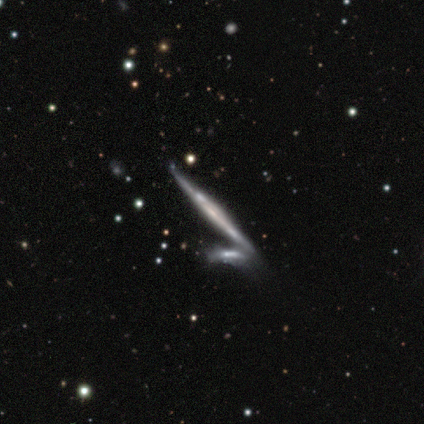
Volunteers were most divided on "merging": minor disturbance: 50%, major disturbance: 25%, merger: 25%, none: 0%. More confident: edge-on disk — yes (100%); smooth or featured — featured or disk (80%); edge-on bulge — none (75%).